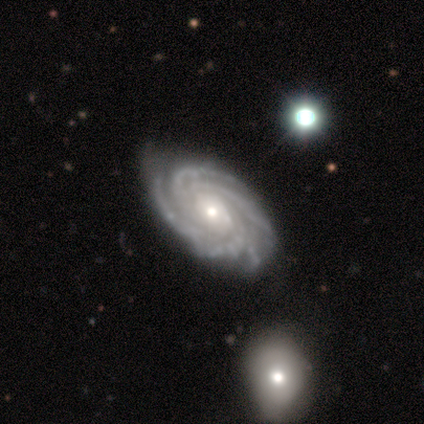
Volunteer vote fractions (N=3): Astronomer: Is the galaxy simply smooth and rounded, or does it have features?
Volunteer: smooth — 33%, tied with featured or disk and star or artifact at 33%.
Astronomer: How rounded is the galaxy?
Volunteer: in between — 100%.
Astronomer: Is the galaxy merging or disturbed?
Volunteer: none — 50%, tied with major disturbance at 50%.